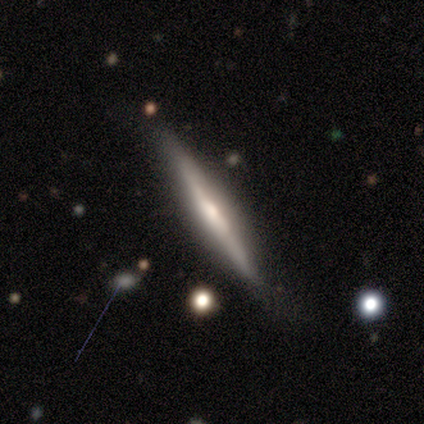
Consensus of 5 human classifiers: Overall: featured or disk (80%). Edge-on disk: yes (100%). Edge-on bulge: rounded (100%). Merging: none (100%).